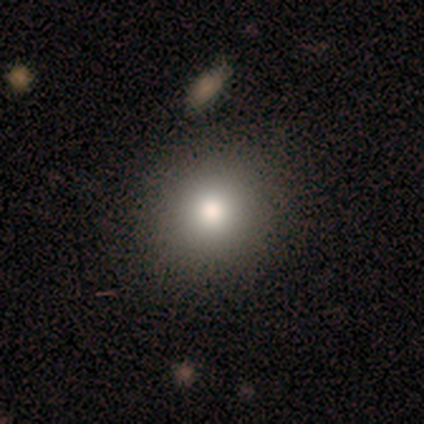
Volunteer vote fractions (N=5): Q: Smooth or featured?
A: smooth (80%); runner-up: star or artifact (20%)
Q: How rounded?
A: round (100%)
Q: Merging?
A: none (100%)